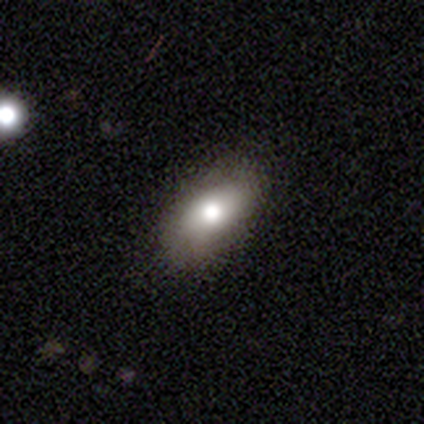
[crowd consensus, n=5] Smooth or featured? smooth (80%)
How rounded? in between (100%)
Merging? none (80%)